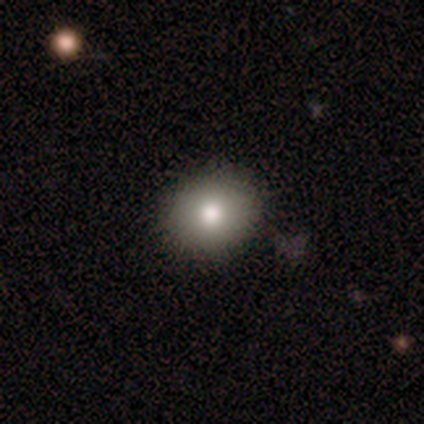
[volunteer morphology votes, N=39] Smooth or featured? 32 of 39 (82%) said smooth. How rounded? 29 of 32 (91%) said round. Merging? 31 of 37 (84%) said none.